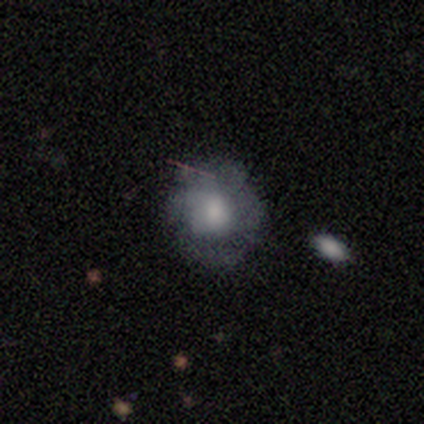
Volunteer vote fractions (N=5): smooth 60%, featured or disk 40%, star or artifact 0%. Down the decision tree: how rounded — round (100%); merging — none (60%).